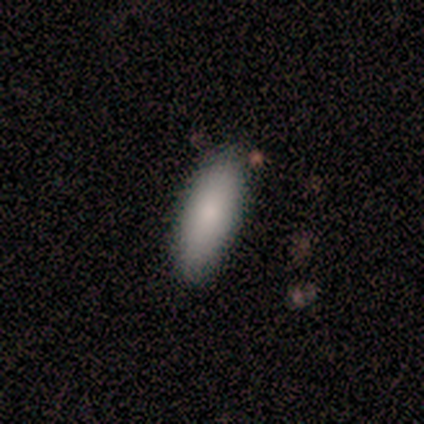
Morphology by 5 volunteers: Smooth or featured: smooth — 100%
How rounded: in between — 60% (cigar-shaped — 40%)
Merging: none — 60% (minor disturbance — 20%)